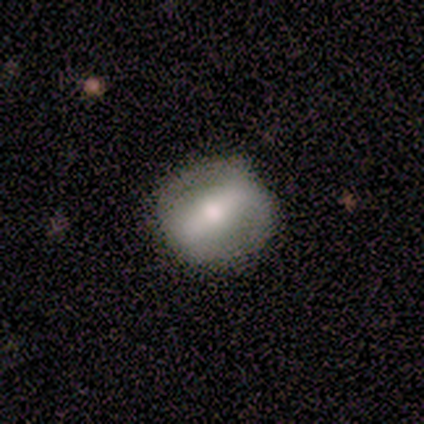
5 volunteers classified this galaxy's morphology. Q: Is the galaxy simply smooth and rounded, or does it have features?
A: featured or disk — 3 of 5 (60%).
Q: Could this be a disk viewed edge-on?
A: no — 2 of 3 (67%).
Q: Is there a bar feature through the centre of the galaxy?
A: strong — 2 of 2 (100%).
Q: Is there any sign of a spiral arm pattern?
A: yes — 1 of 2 (50%, tied with no).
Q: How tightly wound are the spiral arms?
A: medium — 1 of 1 (100%).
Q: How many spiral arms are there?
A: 2 — 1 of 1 (100%).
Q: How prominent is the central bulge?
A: large — 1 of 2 (50%, tied with moderate).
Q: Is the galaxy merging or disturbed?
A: none — 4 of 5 (80%).